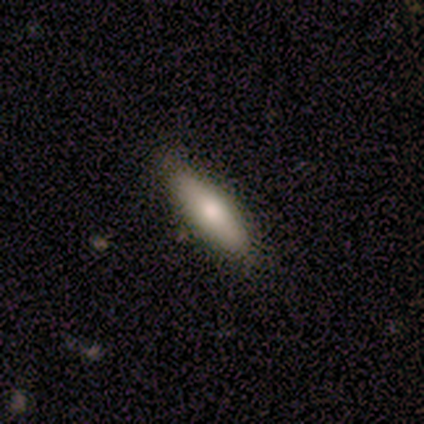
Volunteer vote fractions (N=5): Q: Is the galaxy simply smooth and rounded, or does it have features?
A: smooth — 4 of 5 (80%).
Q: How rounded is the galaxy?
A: in between — 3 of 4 (75%).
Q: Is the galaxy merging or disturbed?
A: none — 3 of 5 (60%).